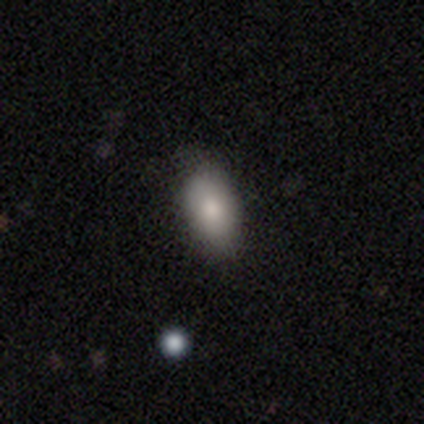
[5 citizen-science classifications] Volunteers were most divided on "how rounded": in between: 80%, cigar-shaped: 20%, round: 0%. More confident: smooth or featured — smooth (100%); merging — none (80%).